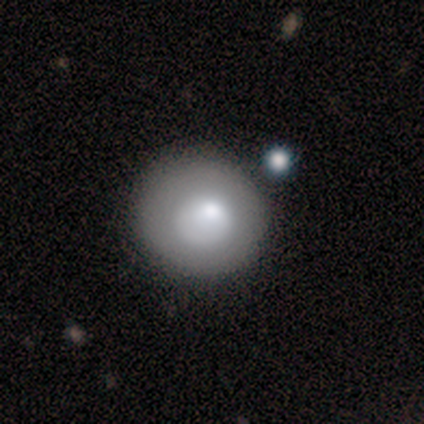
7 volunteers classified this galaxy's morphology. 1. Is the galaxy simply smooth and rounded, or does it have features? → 57% smooth, 29% featured or disk, 14% star or artifact.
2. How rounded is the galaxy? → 75% round, 25% in between, 0% cigar-shaped.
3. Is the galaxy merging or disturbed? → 83% none, 17% minor disturbance, 0% major disturbance, 0% merger.